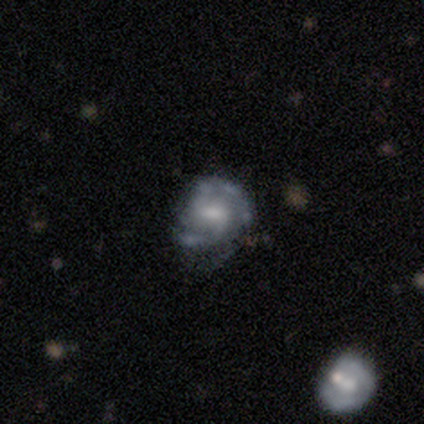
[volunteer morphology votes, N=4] A featured or disk galaxy (75%) with no bar (67%), 2 (100%) tight (33%, tied with medium and loose) spiral arms (100%) and a moderate central bulge (67%). Merging: none (50%, tied with minor disturbance).